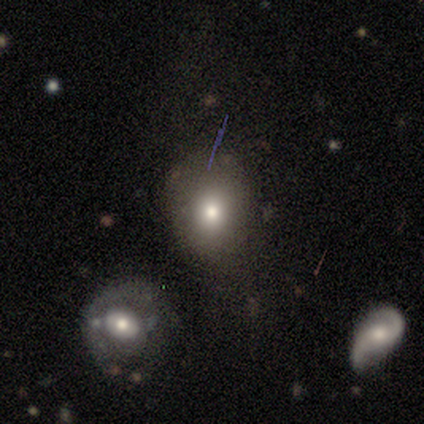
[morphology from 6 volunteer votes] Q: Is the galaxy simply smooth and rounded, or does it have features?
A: smooth — 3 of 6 (50%).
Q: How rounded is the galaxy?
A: round — 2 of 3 (67%).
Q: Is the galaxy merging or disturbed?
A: major disturbance — 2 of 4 (50%).